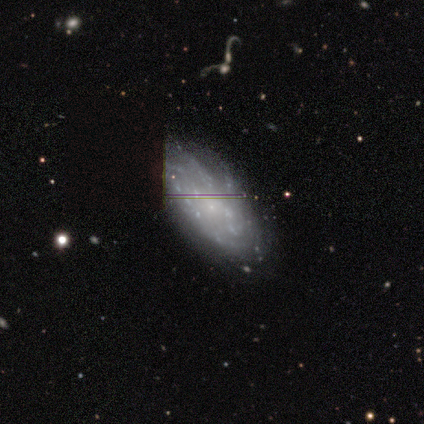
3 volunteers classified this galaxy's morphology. Smooth or featured: featured or disk — 67% (star or artifact — 33%)
Edge-on disk: no — 100%
Bar: weak — 50% (tied with no — 50%)
Spiral arms: yes — 50% (tied with no — 50%)
Spiral winding: medium — 100%
Spiral arm count: 3 — 100%
Bulge size: small — 100%
Merging: minor disturbance — 50% (tied with merger — 50%)